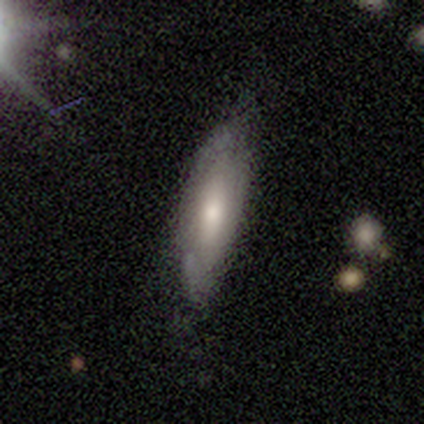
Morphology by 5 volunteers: featured or disk 60%, smooth 40%, star or artifact 0%. Down the decision tree: edge-on disk — no (67%); bar — strong (50%, tied with weak); spiral arms — yes (50%, tied with no); spiral arm count — can't tell (100%); spiral winding — medium (100%); bulge size — moderate (100%); merging — none (80%).